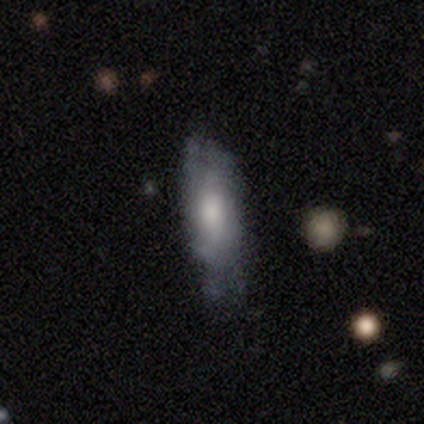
smooth 59%, featured or disk 38%, star or artifact 3%. Down the decision tree: how rounded — in between (52%); merging — none (50%).